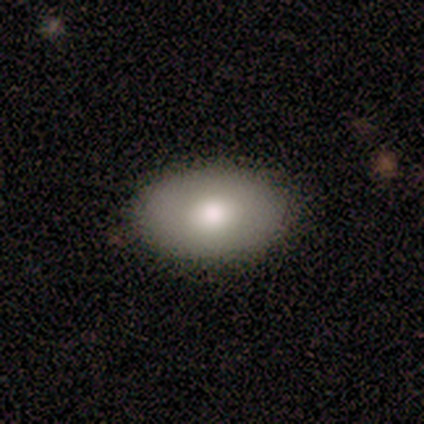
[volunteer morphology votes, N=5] smooth_or_featured: smooth (p=0.60) [alt: featured or disk p=0.40]
how_rounded: in between (p=1.00)
merging: none (p=1.00)